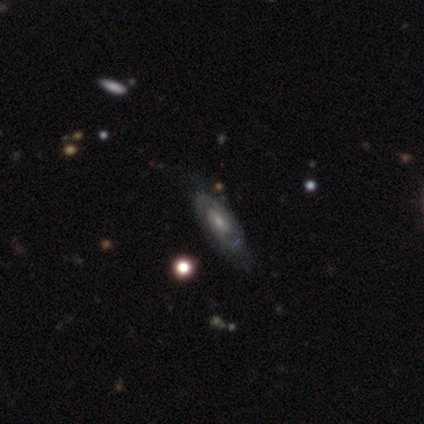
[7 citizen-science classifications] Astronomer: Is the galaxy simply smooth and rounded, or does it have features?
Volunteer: featured or disk — 86%.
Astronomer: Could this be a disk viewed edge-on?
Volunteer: no — 67%.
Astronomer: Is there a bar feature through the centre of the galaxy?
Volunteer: no — 75%.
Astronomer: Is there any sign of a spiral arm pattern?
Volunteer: yes — 75%.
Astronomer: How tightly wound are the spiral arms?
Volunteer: tight — 100%.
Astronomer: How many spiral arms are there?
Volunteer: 2 — 100%.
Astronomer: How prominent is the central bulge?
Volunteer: moderate — 75%.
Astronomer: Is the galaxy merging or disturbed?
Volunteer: none — 67%.